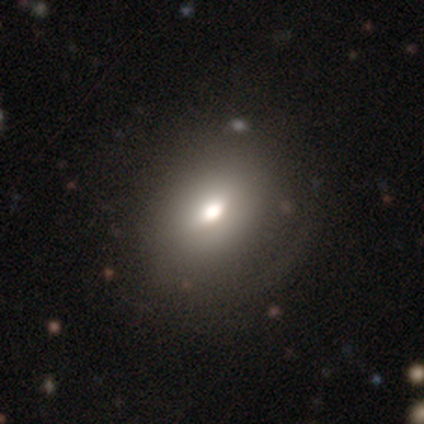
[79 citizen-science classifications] Smooth or featured: smooth — 77% (star or artifact — 15%)
How rounded: in between — 70% (round — 30%)
Merging: none — 24% (minor disturbance — 15%)